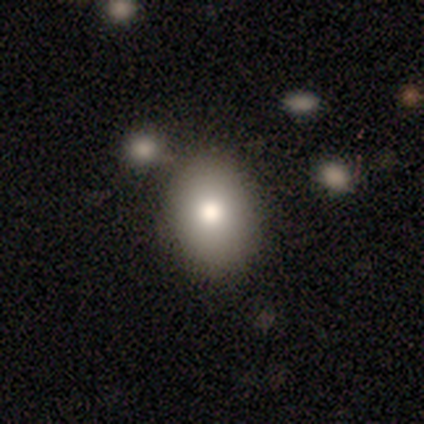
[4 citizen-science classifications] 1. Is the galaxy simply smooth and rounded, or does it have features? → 50% smooth (tied), 50% featured or disk (tied), 0% star or artifact.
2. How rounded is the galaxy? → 100% in between, 0% round, 0% cigar-shaped.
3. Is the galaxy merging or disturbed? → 50% none, 25% minor disturbance, 25% merger, 0% major disturbance.